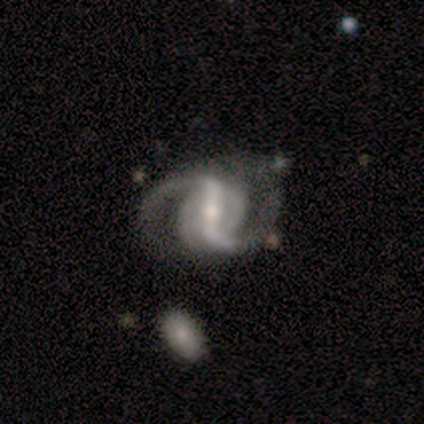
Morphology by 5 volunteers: Volunteers were most divided on "bar" (2-way tie): strong: 40%, weak: 40%, no: 20%; "spiral winding" (2-way tie): medium: 50%, loose: 50%, tight: 0%; "spiral arm count" (2-way tie): 2: 50%, 3: 50%, 1: 0%, 4: 0%, more than 4: 0%, can't tell: 0%; "merging" (2-way tie): none: 40%, major disturbance: 40%, merger: 20%, minor disturbance: 0%. More confident: smooth or featured — featured or disk (100%); edge-on disk — no (100%); spiral arms — yes (80%); bulge size — moderate (60%).